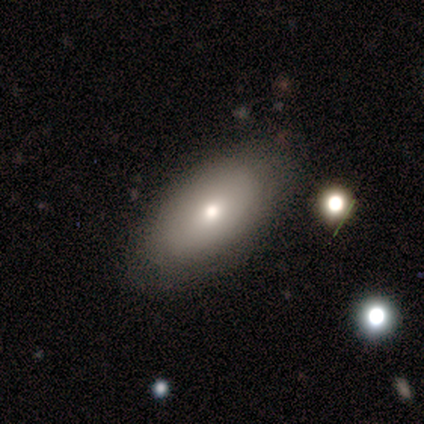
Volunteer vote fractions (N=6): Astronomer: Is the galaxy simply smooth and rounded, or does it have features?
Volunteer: smooth — 83%.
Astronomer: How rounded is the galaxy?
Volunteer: in between — 100%.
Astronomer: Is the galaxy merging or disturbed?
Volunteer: none — 83%.